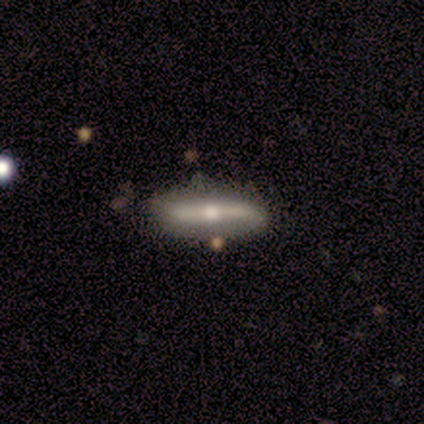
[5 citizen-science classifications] A featured or disk galaxy (80%) viewed edge-on (75%) with a rounded central bulge (100%). Merging: none (80%).